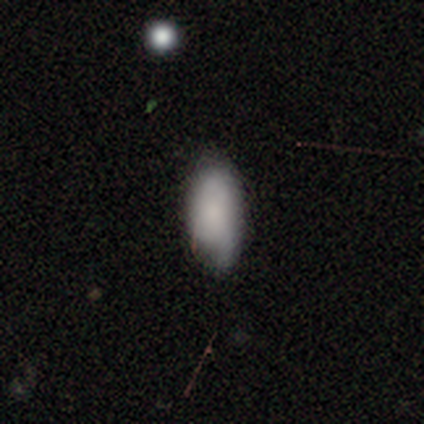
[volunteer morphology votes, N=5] Volunteers were most divided on "merging": minor disturbance: 60%, none: 20%, major disturbance: 20%, merger: 0%. More confident: smooth or featured — smooth (100%); how rounded — in between (100%).